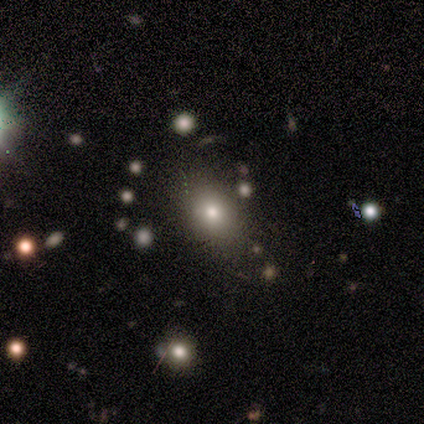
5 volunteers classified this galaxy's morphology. Smooth or featured? smooth (100%)
How rounded? round (60%)
Merging? none (100%)